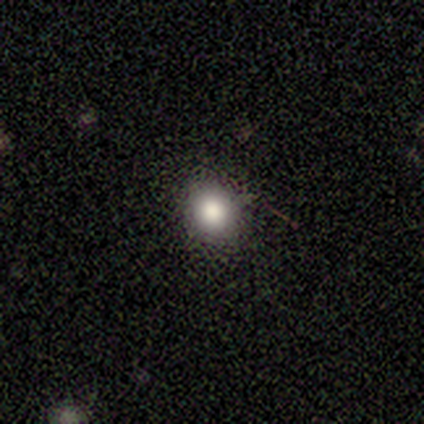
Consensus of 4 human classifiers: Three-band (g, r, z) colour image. It shows a smooth galaxy with no disk features (75%) that is round (67%). Merging: none (100%).